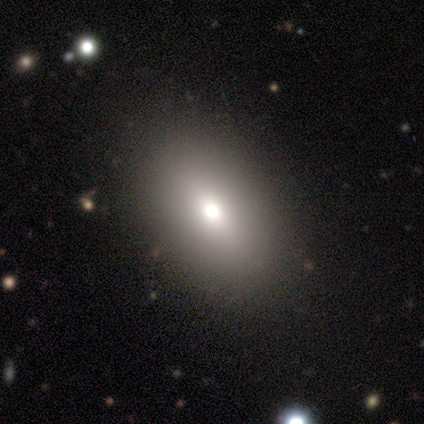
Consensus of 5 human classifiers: Overall: smooth (60%; star or artifact 40%). How rounded: in between (100%). Merging: none (100%).